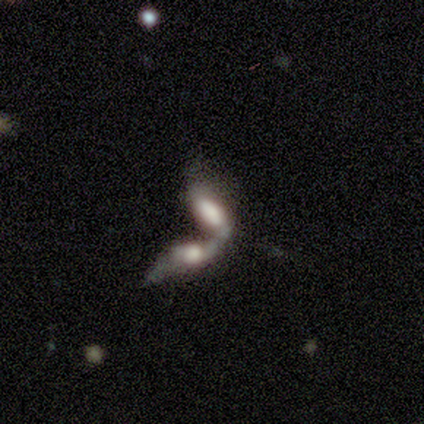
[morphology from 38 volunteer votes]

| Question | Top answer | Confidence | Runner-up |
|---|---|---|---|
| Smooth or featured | smooth | 47% | featured or disk (37%) |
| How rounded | in between | 67% | cigar-shaped (33%) |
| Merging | merger | 88% | none (9%) |